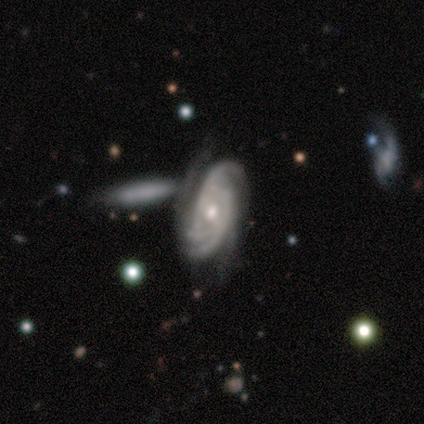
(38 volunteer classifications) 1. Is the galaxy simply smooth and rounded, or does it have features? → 100% featured or disk, 0% smooth, 0% star or artifact.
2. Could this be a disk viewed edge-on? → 100% no, 0% yes.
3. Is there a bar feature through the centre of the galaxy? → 63% no, 32% weak, 5% strong.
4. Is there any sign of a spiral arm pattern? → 100% yes, 0% no.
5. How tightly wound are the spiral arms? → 74% tight, 24% medium, 3% loose.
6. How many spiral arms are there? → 32% 3, 29% can't tell, 18% 2, 16% 4, 5% more than 4, 0% 1.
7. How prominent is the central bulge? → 55% moderate, 34% small, 8% large, 3% dominant, 0% none.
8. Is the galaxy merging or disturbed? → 32% none, 18% minor disturbance, 18% merger, 8% major disturbance.